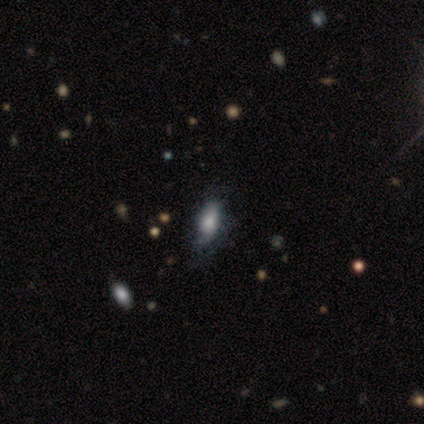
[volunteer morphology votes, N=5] A smooth galaxy with no disk features (60%) that is in between round and cigar-shaped (100%).

Vote fractions:
- Smooth or featured? smooth: 60% / featured or disk: 40% / star or artifact: 0%
- How rounded? in between: 100% / round: 0% / cigar-shaped: 0%
- Merging? minor disturbance: 80% / none: 20% / major disturbance: 0% / merger: 0%